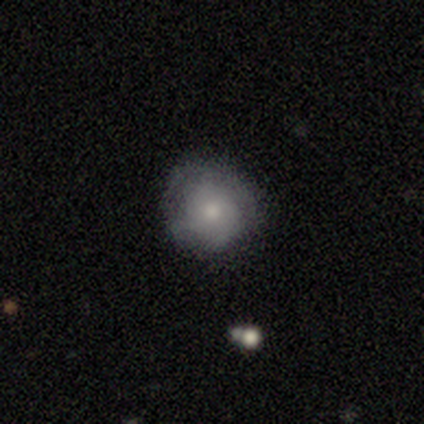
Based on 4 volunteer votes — smooth_or_featured: smooth (p=0.75) [alt: featured or disk p=0.25]
how_rounded: round (p=1.00)
merging: none (p=0.50) [tied with: minor disturbance p=0.50]